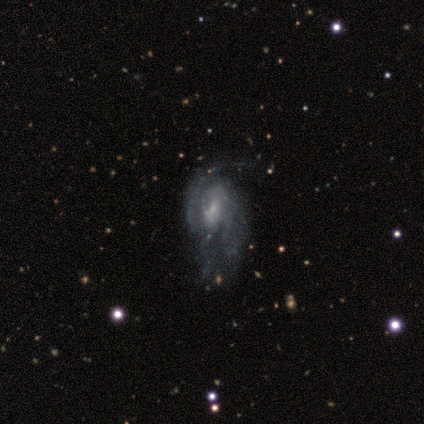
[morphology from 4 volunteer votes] Q: Smooth or featured?
A: featured or disk (100%)
Q: Edge-on disk?
A: no (100%)
Q: Bar?
A: weak (75%); runner-up: no (25%)
Q: Spiral arms?
A: yes (100%)
Q: Spiral winding?
A: tight (50%); tied with: medium (50%)
Q: Spiral arm count?
A: can't tell (50%); runner-up: 2 (25%)
Q: Bulge size?
A: small (75%); runner-up: none (25%)
Q: Merging?
A: none (100%)